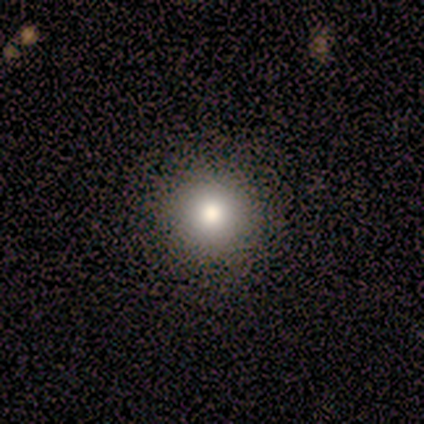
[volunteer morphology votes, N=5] Q: Smooth or featured?
A: smooth (100%)
Q: How rounded?
A: round (100%)
Q: Merging?
A: none (100%)